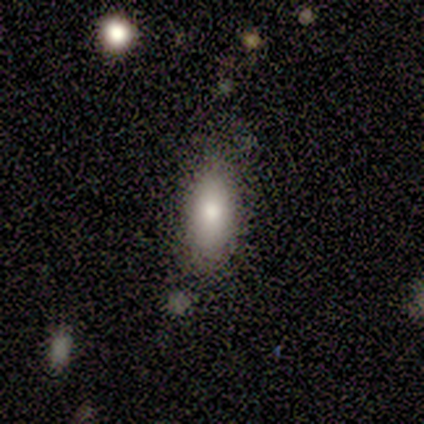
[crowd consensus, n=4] This is clearly a smooth galaxy (100%). How rounded: likely in between (75%). Merging: likely none (75%).